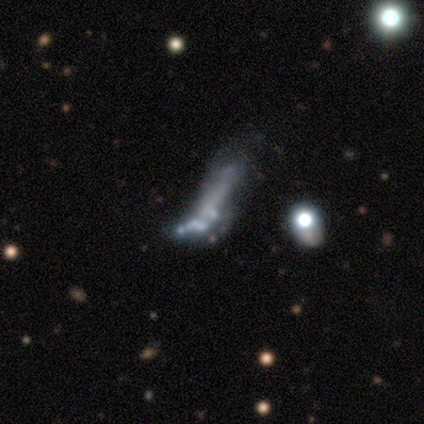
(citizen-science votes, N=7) A featured or disk galaxy (57%) with no bar (100%), no spiral arms (100%) and a small central bulge (50%, tied with none). Merging: minor disturbance (33%, tied with major disturbance).